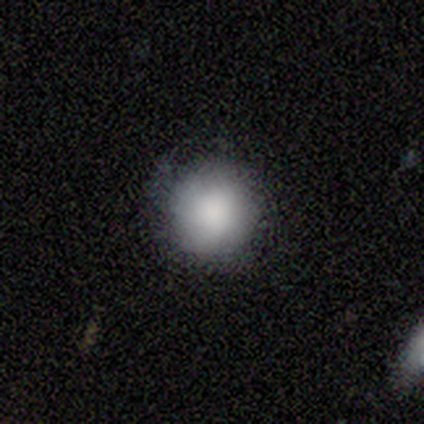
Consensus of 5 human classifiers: Smooth or featured: smooth — 100%
How rounded: round — 100%
Merging: none — 100%